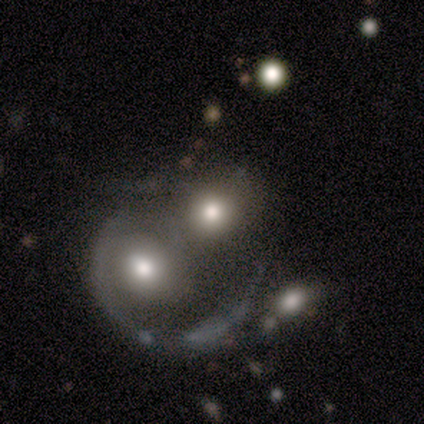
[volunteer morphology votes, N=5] type=smooth (40%, tied with featured or disk); roundness=round (50%, tied with in between); merging=merger (75%).